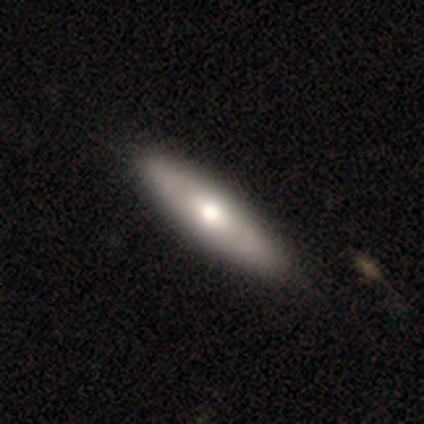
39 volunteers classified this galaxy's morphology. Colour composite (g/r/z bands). It shows a smooth galaxy with no disk features (64%) that is cigar-shaped (64%). Merging: none (62%).